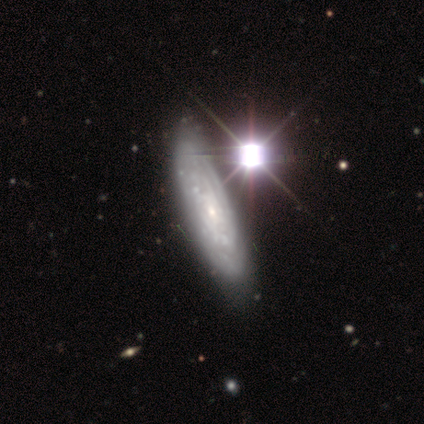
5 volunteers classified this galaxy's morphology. Smooth or featured? featured or disk (100%)
Edge-on disk? no (60%)
Bar? no (100%)
Spiral arms? yes (100%)
Spiral winding? tight (100%)
Spiral arm count? 2 (67%)
Bulge size? small (100%)
Merging? none (80%)